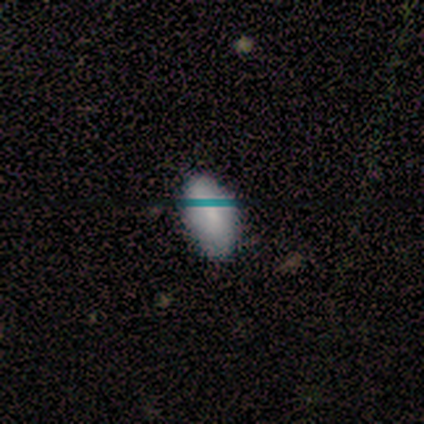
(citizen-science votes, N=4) Volunteers were most divided on "merging": none: 75%, minor disturbance: 25%, major disturbance: 0%, merger: 0%. More confident: smooth or featured — smooth (100%); how rounded — in between (100%).